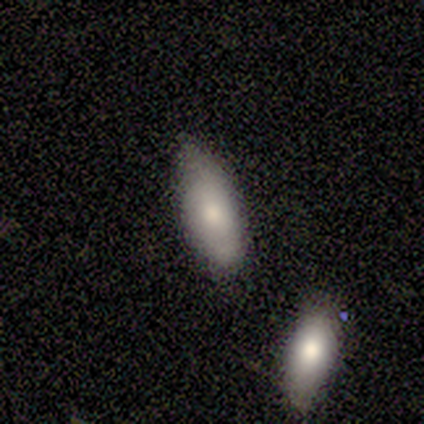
Smooth or featured? 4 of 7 (57%) said smooth. How rounded? 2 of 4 (50%) said in between. Merging? 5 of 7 (71%) said none.